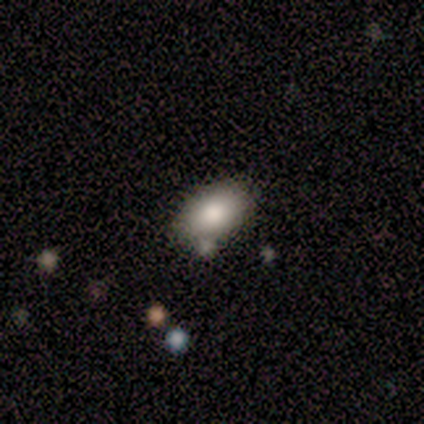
This is clearly a smooth galaxy (100%). How rounded: likely in between (67%). Merging: likely none (78%).